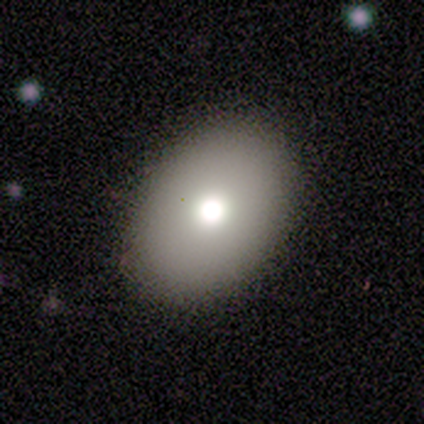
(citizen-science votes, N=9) Q: Smooth or featured?
A: smooth (78%); runner-up: featured or disk (11%)
Q: How rounded?
A: in between (57%); runner-up: round (43%)
Q: Merging?
A: none (88%); runner-up: minor disturbance (12%)